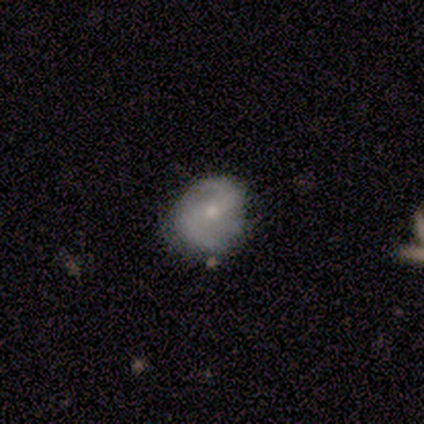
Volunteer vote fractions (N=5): Smooth or featured?
  - featured or disk: 60% *
  - smooth: 20%
  - star or artifact: 20%
Edge-on disk?
  - no: 100% *
  - yes: 0%
Bar?
  - strong: 67% *
  - weak: 33%
  - no: 0%
Spiral arms?
  - yes: 100% *
  - no: 0%
Spiral winding?
  - medium: 100% *
  - tight: 0%
  - loose: 0%
Spiral arm count?
  - 2: 67% *
  - 3: 33%
  - 1: 0%
  - 4: 0%
  - more than 4: 0%
  - can't tell: 0%
Bulge size?
  - small: 67% *
  - moderate: 33%
  - dominant: 0%
  - large: 0%
  - none: 0%
Merging?
  - none: 75% *
  - major disturbance: 25%
  - minor disturbance: 0%
  - merger: 0%